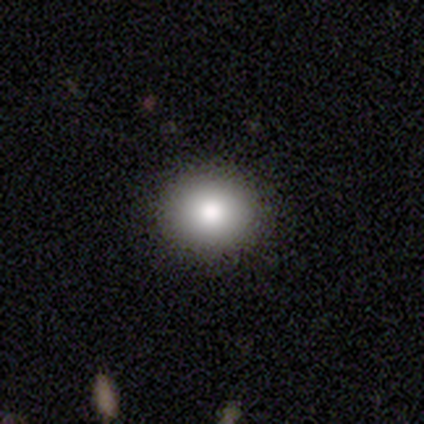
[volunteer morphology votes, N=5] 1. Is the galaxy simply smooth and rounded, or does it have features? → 80% smooth, 20% star or artifact, 0% featured or disk.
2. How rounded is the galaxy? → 75% round, 25% in between, 0% cigar-shaped.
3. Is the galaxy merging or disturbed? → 100% none, 0% minor disturbance, 0% major disturbance, 0% merger.